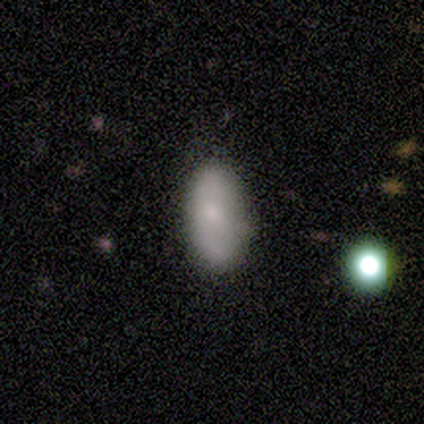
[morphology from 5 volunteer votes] A smooth galaxy with no disk features (80%) that is in between round and cigar-shaped (100%).

Vote fractions:
- Smooth or featured? smooth: 80% / star or artifact: 20% / featured or disk: 0%
- How rounded? in between: 100% / round: 0% / cigar-shaped: 0%
- Merging? none: 100% / minor disturbance: 0% / major disturbance: 0% / merger: 0%